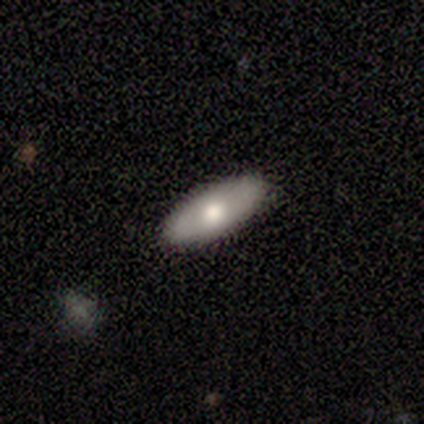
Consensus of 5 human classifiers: smooth_or_featured: smooth (p=0.60) [alt: featured or disk p=0.40]
how_rounded: in between (p=1.00)
merging: none (p=1.00)